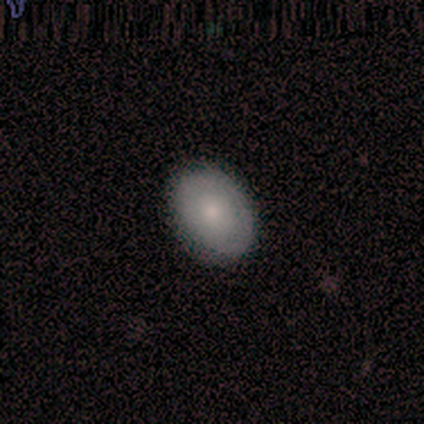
This is likely a smooth galaxy (75%). How rounded: clearly in between (100%). Merging: clearly none (100%).